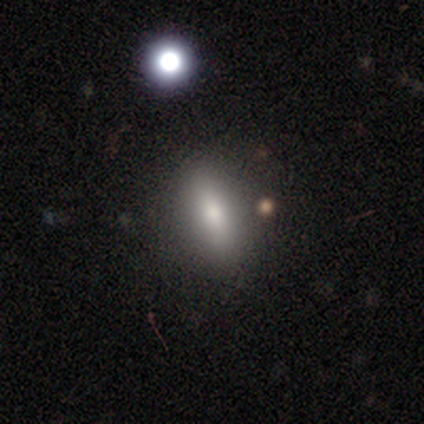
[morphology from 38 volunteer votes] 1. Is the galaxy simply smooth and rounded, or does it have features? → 71% smooth, 18% star or artifact, 11% featured or disk.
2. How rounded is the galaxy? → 67% in between, 30% cigar-shaped, 4% round.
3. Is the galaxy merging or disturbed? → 84% none, 10% merger, 3% minor disturbance, 3% major disturbance.